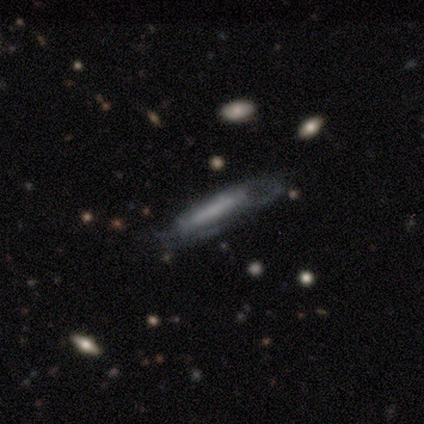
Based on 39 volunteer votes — Overall: featured or disk (67%). Edge-on disk: no (58%; yes 42%). Bar: strong (60%; weak 20%). Spiral arms: yes (67%; no 33%). Spiral arm count: can't tell (60%; 2 30%). Spiral winding: tight (60%; medium 30%). Bulge size: none (67%). Merging: none (54%; major disturbance 31%).